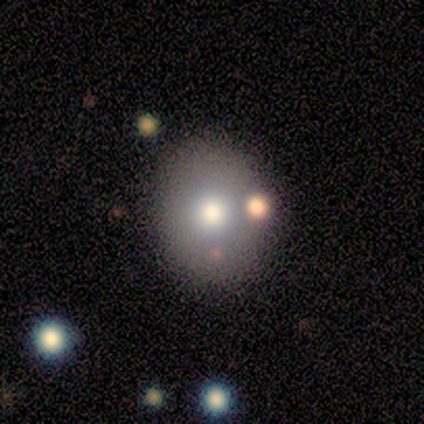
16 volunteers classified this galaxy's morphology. smooth_or_featured: smooth (p=0.56) [alt: featured or disk p=0.38]
how_rounded: round (p=0.44) [tied with: in between p=0.44]
merging: none (p=0.40) [alt: merger p=0.27]